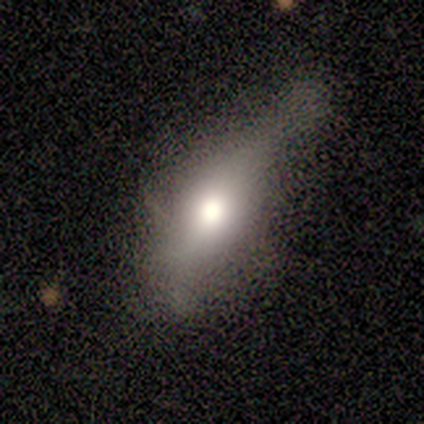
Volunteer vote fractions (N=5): This is likely a featured or disk galaxy (60%). It is likely not viewed edge-on (67%). Bar: clearly no (100%). Spiral arm pattern: clearly no (100%). Central bulge: possibly large (50%, tied with moderate). Merging: possibly none (50%).